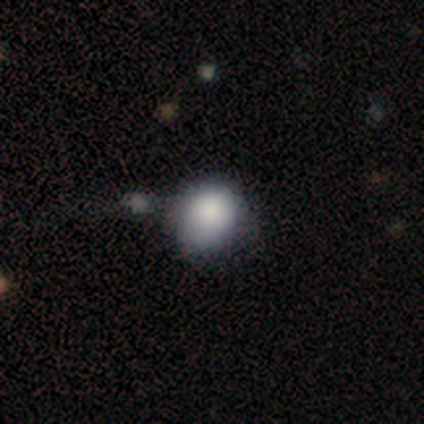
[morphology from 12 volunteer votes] Volunteers were most divided on "how rounded" (2-way tie): round: 50%, in between: 50%, cigar-shaped: 0%. More confident: smooth or featured — smooth (83%); merging — none (50%).